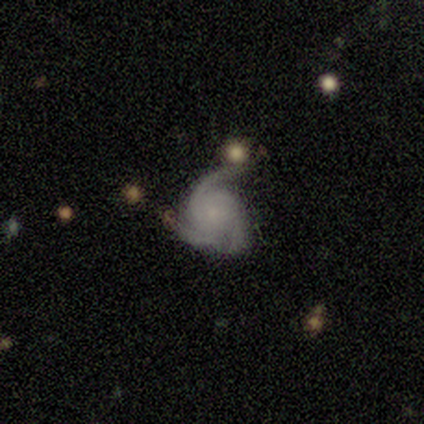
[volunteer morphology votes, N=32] featured or disk 88%, smooth 9%, star or artifact 3%. Down the decision tree: edge-on disk — no (100%); bar — no (82%); spiral arms — yes (100%); spiral arm count — 3 (89%); spiral winding — medium (61%); bulge size — small (54%); merging — none (45%).